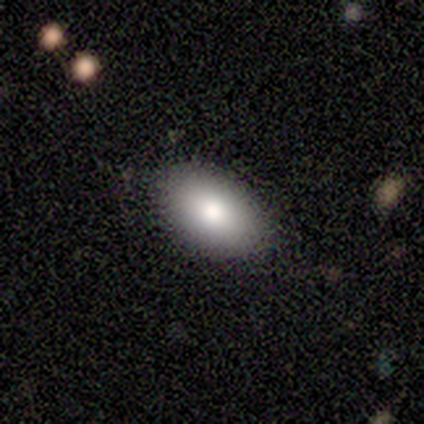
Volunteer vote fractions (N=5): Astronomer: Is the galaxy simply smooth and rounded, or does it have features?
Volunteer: smooth — 100%.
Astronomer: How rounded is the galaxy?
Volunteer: in between — 100%.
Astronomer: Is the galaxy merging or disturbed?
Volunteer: none — 80%.